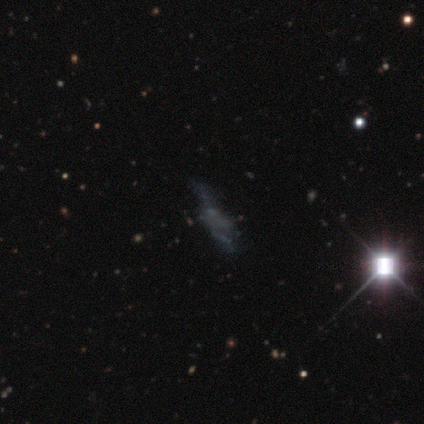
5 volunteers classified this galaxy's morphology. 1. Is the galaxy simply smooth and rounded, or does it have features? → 60% featured or disk, 20% smooth, 20% star or artifact.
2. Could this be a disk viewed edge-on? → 100% no, 0% yes.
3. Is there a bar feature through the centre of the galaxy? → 67% no, 33% weak, 0% strong.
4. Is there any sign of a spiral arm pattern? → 67% yes, 33% no.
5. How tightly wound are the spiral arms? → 100% loose, 0% tight, 0% medium.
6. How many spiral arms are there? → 100% 2, 0% 1, 0% 3, 0% 4, 0% more than 4, 0% can't tell.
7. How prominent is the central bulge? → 67% none, 33% small, 0% dominant, 0% large, 0% moderate.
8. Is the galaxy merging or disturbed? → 50% none (tied), 50% major disturbance (tied), 0% minor disturbance, 0% merger.